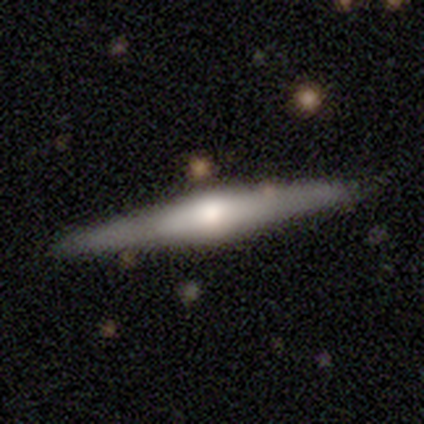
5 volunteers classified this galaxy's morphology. Smooth or featured?
  - featured or disk: 80% *
  - smooth: 20%
  - star or artifact: 0%
Edge-on disk?
  - yes: 100% *
  - no: 0%
Edge-on bulge?
  - rounded: 75% *
  - none: 25%
  - boxy: 0%
Merging?
  - none: 100% *
  - minor disturbance: 0%
  - major disturbance: 0%
  - merger: 0%